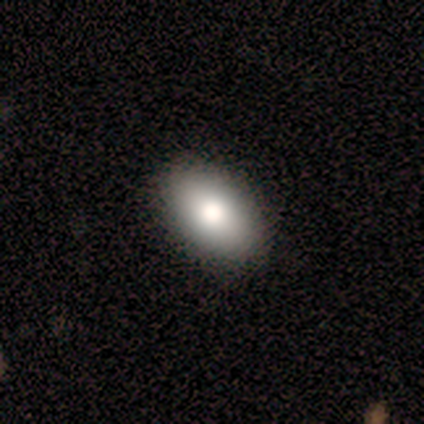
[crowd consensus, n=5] Morphology: type=smooth (100%); roundness=in between (100%); merging=none (100%).